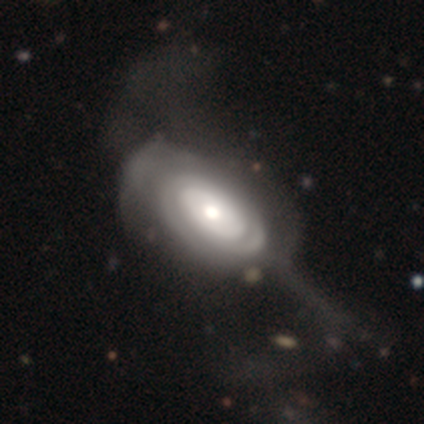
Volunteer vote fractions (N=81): Q: Smooth or featured?
A: featured or disk (77%); runner-up: smooth (22%)
Q: Edge-on disk?
A: no (95%); runner-up: yes (5%)
Q: Bar?
A: no (88%); runner-up: weak (12%)
Q: Spiral arms?
A: yes (64%); runner-up: no (36%)
Q: Spiral winding?
A: tight (76%); runner-up: loose (16%)
Q: Spiral arm count?
A: can't tell (58%); runner-up: 2 (26%)
Q: Bulge size?
A: moderate (64%); runner-up: large (17%)
Q: Merging?
A: major disturbance (30%); runner-up: none (12%)